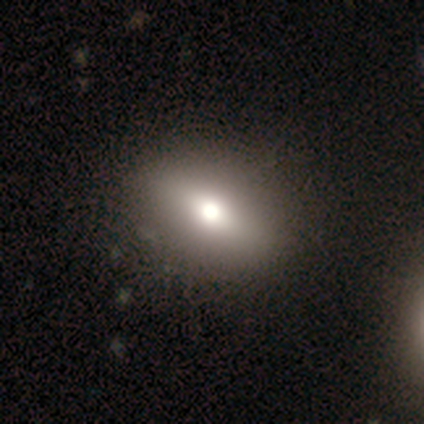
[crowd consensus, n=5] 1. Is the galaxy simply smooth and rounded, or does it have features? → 60% smooth, 20% featured or disk, 20% star or artifact.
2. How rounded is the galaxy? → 67% in between, 33% round, 0% cigar-shaped.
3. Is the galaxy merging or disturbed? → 100% none, 0% minor disturbance, 0% major disturbance, 0% merger.